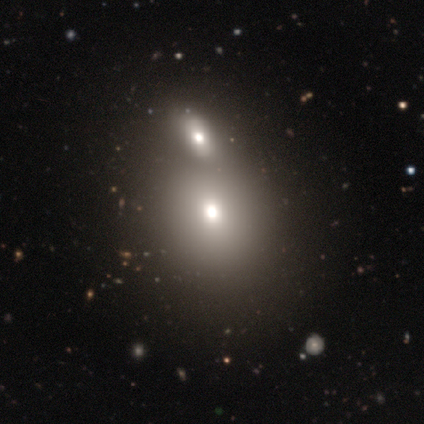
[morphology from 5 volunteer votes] A smooth galaxy with no disk features (40%, tied with featured or disk) that is round (50%, tied with in between).

Vote fractions:
- Smooth or featured? smooth: 40% (tied) / featured or disk: 40% (tied) / star or artifact: 20%
- How rounded? round: 50% (tied) / in between: 50% (tied) / cigar-shaped: 0%
- Merging? merger: 50% / none: 25% / minor disturbance: 25% / major disturbance: 0%